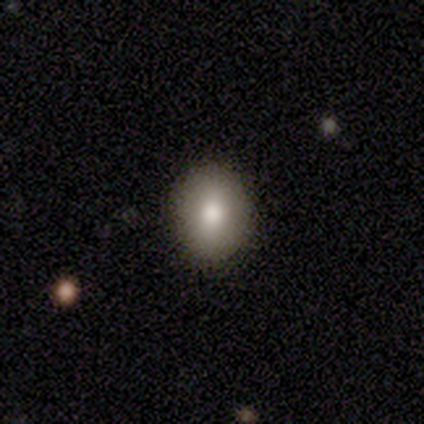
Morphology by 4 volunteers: smooth-or-featured: smooth: 100% | featured or disk: 0% | star or artifact: 0%
  how-rounded: round: 50% (tied) | in between: 50% (tied) | cigar-shaped: 0%
  merging: none: 75% | minor disturbance: 25% | major disturbance: 0% | merger: 0%